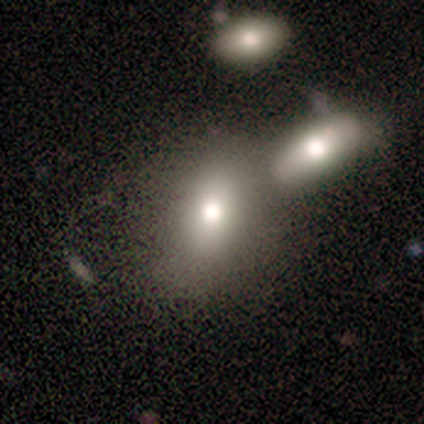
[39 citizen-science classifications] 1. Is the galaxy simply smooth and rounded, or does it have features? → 79% smooth, 15% featured or disk, 5% star or artifact.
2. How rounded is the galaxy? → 55% in between, 42% round, 3% cigar-shaped.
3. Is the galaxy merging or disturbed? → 54% none, 30% merger, 14% minor disturbance, 3% major disturbance.